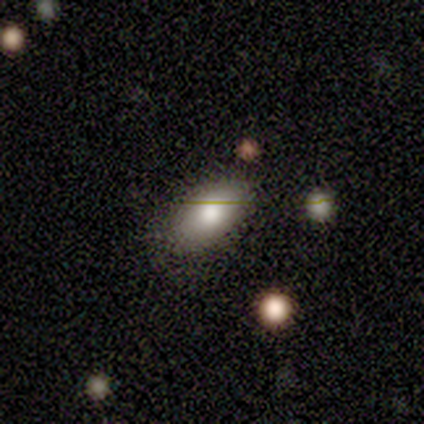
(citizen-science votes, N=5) Morphology: type=smooth (80%); roundness=in between (100%); merging=none (75%).